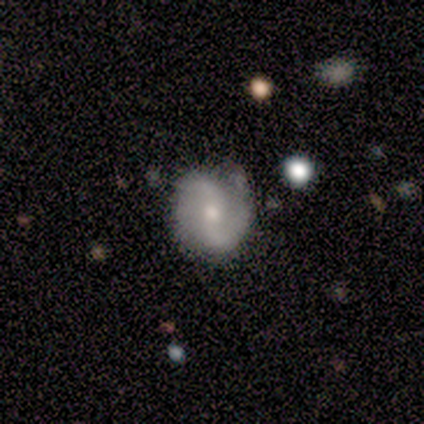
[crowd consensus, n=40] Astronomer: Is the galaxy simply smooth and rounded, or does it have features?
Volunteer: featured or disk — 80%.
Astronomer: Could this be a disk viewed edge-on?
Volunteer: no — 94%.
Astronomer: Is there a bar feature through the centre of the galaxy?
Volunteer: no — 43% (runner-up: weak, 33%).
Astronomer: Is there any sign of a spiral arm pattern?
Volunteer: yes — 93%.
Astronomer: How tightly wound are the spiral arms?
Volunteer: medium — 46% (runner-up: loose, 36%).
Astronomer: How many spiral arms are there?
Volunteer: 2 — 100%.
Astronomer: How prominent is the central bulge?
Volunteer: moderate — 50%, tied with small at 50%.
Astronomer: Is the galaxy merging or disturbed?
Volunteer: none — 79%.